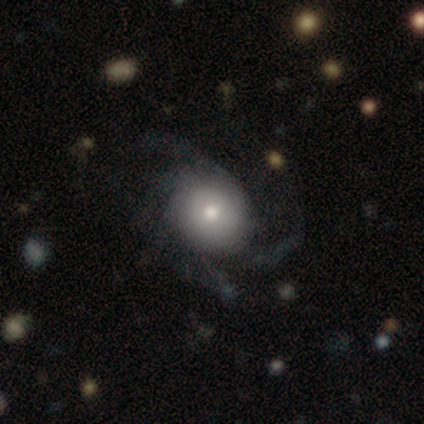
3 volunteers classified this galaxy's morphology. A smooth galaxy with no disk features (67%) that is round (50%, tied with in between). Merging: none (67%).